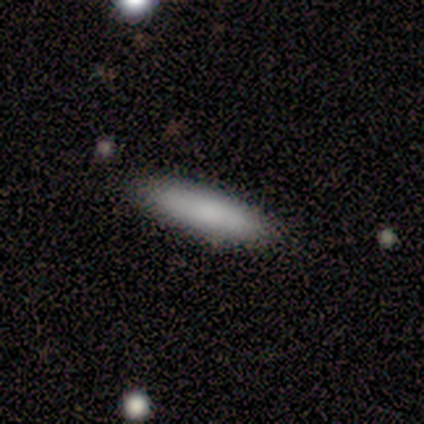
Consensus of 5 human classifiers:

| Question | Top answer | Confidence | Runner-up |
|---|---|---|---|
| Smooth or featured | smooth | 100% | — |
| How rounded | in between | 60% | cigar-shaped (40%) |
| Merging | none | 100% | — |